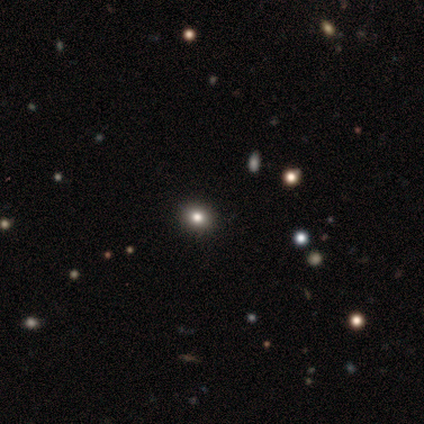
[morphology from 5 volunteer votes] Q: Smooth or featured?
A: smooth (40%); tied with: star or artifact (40%)
Q: How rounded?
A: round (100%)
Q: Merging?
A: none (100%)